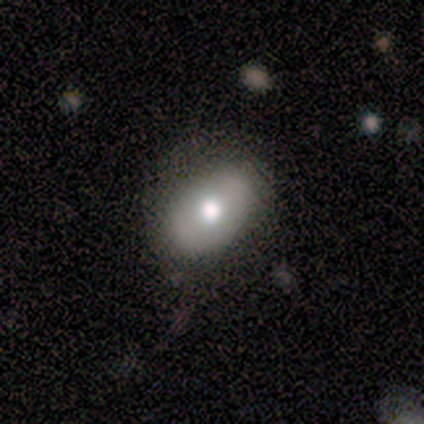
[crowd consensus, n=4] Q: Smooth or featured?
A: smooth (50%); runner-up: featured or disk (25%)
Q: How rounded?
A: in between (100%)
Q: Merging?
A: none (100%)